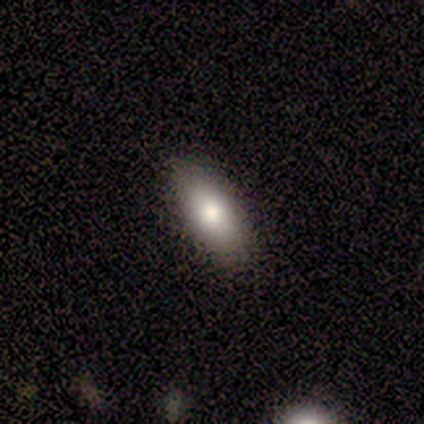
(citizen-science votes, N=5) A smooth galaxy with no disk features (80%) that is in between round and cigar-shaped (100%).

Vote fractions:
- Smooth or featured? smooth: 80% / featured or disk: 20% / star or artifact: 0%
- How rounded? in between: 100% / round: 0% / cigar-shaped: 0%
- Merging? none: 100% / minor disturbance: 0% / major disturbance: 0% / merger: 0%